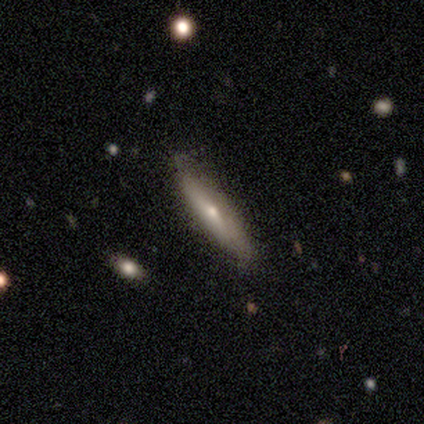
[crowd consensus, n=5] Smooth or featured? smooth (60%)
How rounded? cigar-shaped (100%)
Merging? none (75%)